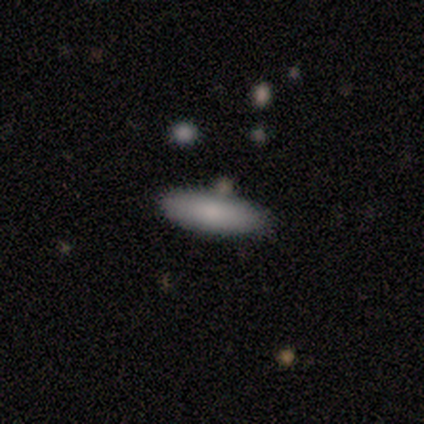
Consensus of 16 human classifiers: This is clearly a smooth galaxy (94%). How rounded: possibly in between (53%). Merging: clearly none (94%).